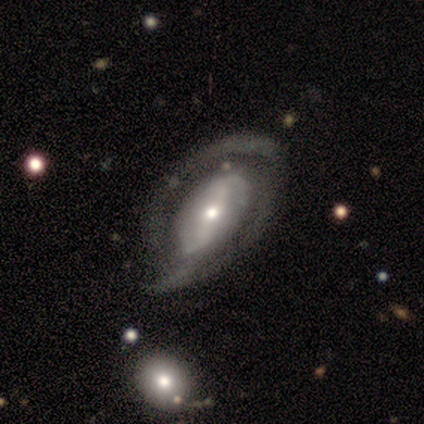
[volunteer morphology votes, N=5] Smooth or featured? 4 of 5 (80%) said featured or disk. Edge-on disk? 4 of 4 (100%) said no. Bar? 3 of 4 (75%) said strong. Spiral arms? 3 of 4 (75%) said yes. Spiral winding? 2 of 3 (67%) said tight. Spiral arm count? 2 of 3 (67%) said 2. Bulge size? 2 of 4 (50%, tied with small) said moderate. Merging? 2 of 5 (40%, tied with minor disturbance) said none.